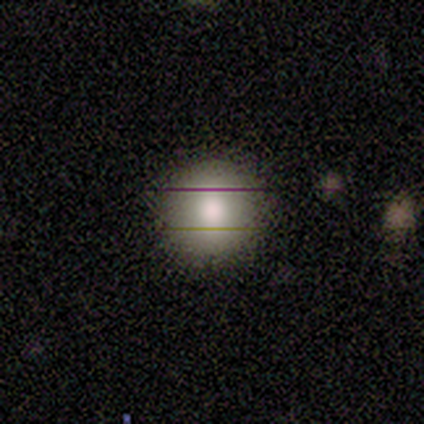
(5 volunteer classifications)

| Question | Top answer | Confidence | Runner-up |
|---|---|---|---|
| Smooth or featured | smooth | 80% | featured or disk (20%) |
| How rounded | round | 100% | — |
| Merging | none | 100% | — |